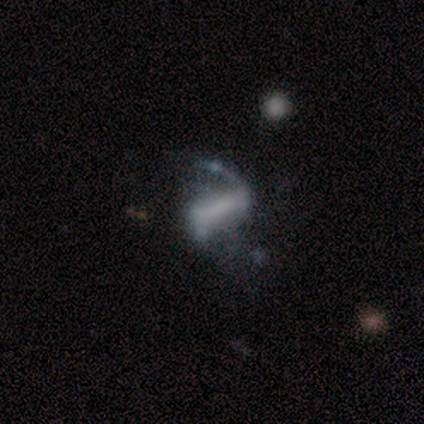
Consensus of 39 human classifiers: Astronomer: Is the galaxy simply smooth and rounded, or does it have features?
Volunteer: featured or disk — 82%.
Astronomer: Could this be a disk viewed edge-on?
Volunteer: no — 97%.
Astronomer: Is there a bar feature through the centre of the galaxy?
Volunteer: strong — 68%.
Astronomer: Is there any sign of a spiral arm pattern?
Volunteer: yes — 90%.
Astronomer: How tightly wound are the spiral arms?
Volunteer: loose — 86%.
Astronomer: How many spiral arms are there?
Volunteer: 2 — 61%.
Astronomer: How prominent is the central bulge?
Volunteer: none — 68%.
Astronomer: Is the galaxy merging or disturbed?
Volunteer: none — 32% (runner-up: major disturbance, 27%).